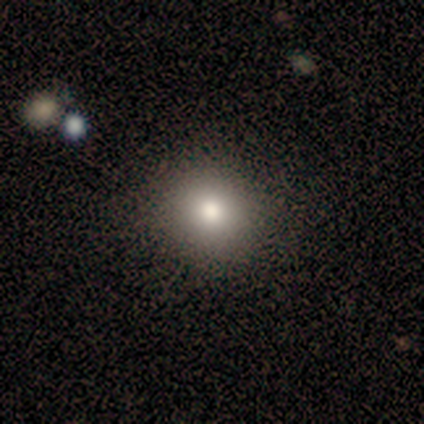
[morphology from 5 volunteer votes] smooth-or-featured: smooth: 80% | featured or disk: 20% | star or artifact: 0%
  how-rounded: round: 100% | in between: 0% | cigar-shaped: 0%
  merging: none: 100% | minor disturbance: 0% | major disturbance: 0% | merger: 0%